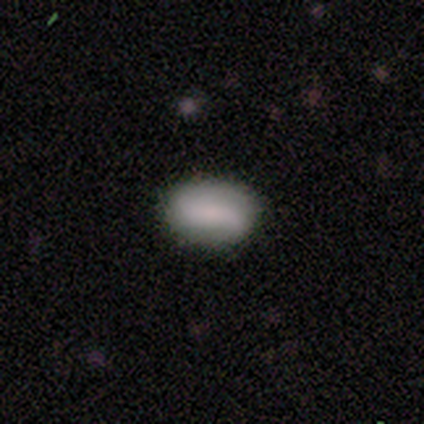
This is likely a smooth galaxy (71%). How rounded: clearly in between (90%). Merging: clearly none (85%).